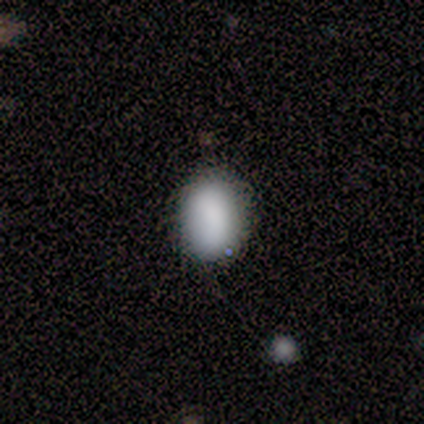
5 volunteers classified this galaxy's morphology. A smooth galaxy with no disk features (100%) that is in between round and cigar-shaped (60%).

Vote fractions:
- Smooth or featured? smooth: 100% / featured or disk: 0% / star or artifact: 0%
- How rounded? in between: 60% / round: 40% / cigar-shaped: 0%
- Merging? none: 80% / merger: 20% / minor disturbance: 0% / major disturbance: 0%